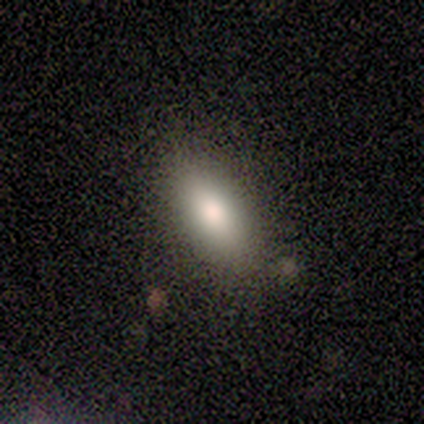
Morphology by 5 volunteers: smooth 40% (tied), featured or disk 40% (tied), star or artifact 20%. Down the decision tree: how rounded — in between (100%); merging — none (50%, tied with minor disturbance).